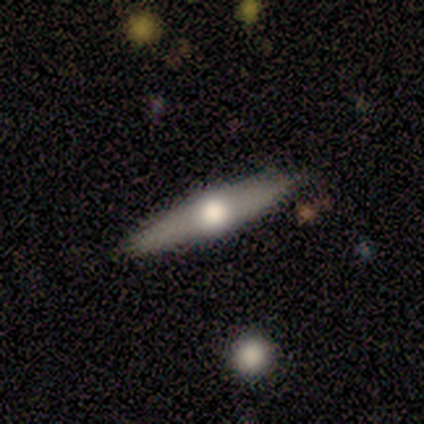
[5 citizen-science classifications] smooth-or-featured: featured or disk: 80% | smooth: 20% | star or artifact: 0%
  disk-edge-on: yes: 100% | no: 0%
    edge-on-bulge: rounded: 100% | boxy: 0% | none: 0%
  merging: none: 100% | minor disturbance: 0% | major disturbance: 0% | merger: 0%